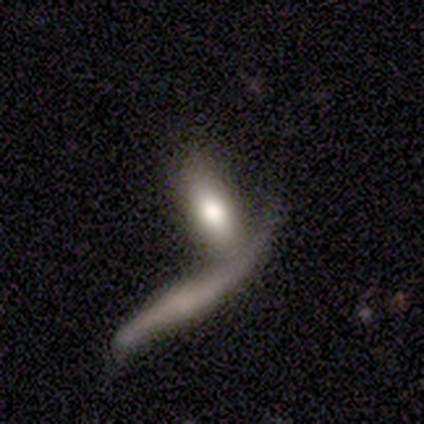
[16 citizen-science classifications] Morphology: type=smooth (88%); roundness=in between (64%); merging=merger (56%).